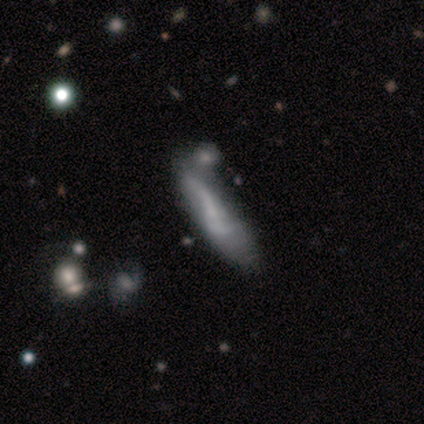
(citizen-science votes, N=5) Volunteers were most divided on "bar" (2-way tie): strong: 50%, no: 50%, weak: 0%; "spiral arm count" (2-way tie): 2: 50%, can't tell: 50%, 1: 0%, 3: 0%, 4: 0%, more than 4: 0%. More confident: spiral arms — yes (100%); spiral winding — loose (100%); bulge size — none (100%); merging — merger (80%); edge-on disk — no (67%); smooth or featured — featured or disk (60%).